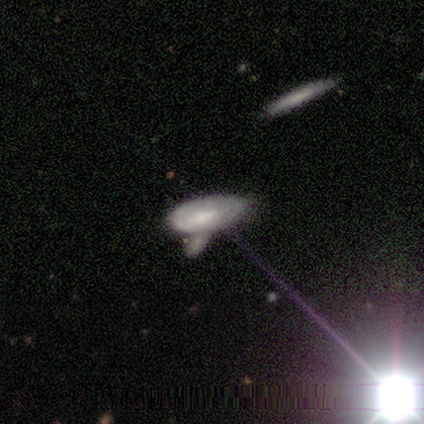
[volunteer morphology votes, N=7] This is possibly a featured or disk galaxy (57%). It is clearly not viewed edge-on (100%). Bar: likely weak (75%). Spiral arm pattern: likely no (75%). Central bulge: possibly moderate (50%). Merging: marginally minor disturbance (43%, tied with merger).